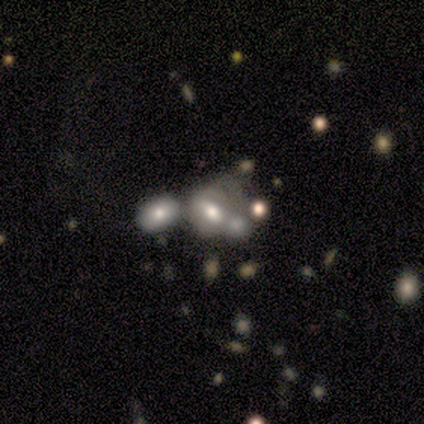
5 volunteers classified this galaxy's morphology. Overall: smooth (100%). How rounded: in between (80%). Merging: merger (80%).